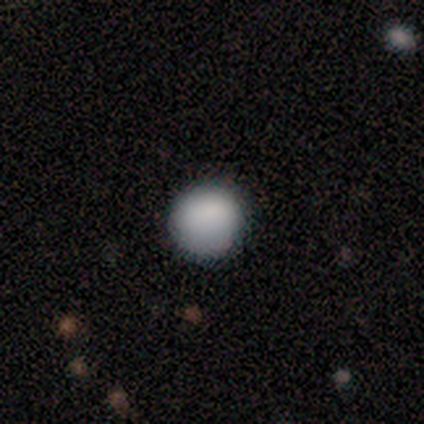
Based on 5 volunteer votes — Smooth or featured?
  - smooth: 60% *
  - star or artifact: 40%
  - featured or disk: 0%
How rounded?
  - round: 67% *
  - in between: 33%
  - cigar-shaped: 0%
Merging?
  - none: 100% *
  - minor disturbance: 0%
  - major disturbance: 0%
  - merger: 0%